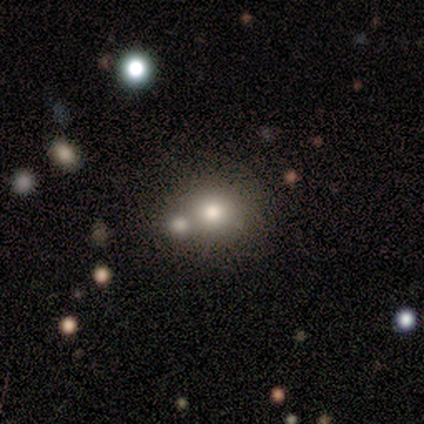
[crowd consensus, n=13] smooth 85%, featured or disk 8%, star or artifact 8%. Down the decision tree: how rounded — round (73%); merging — none (75%).